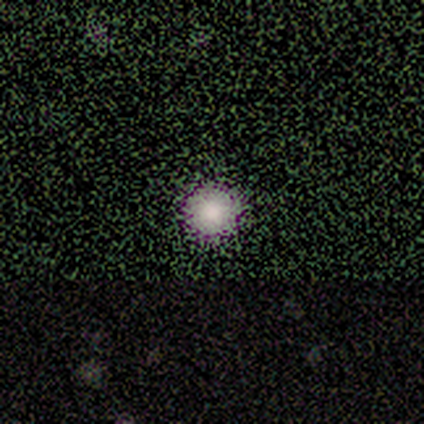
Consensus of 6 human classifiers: smooth_or_featured: smooth (p=0.67) [alt: star or artifact p=0.33]
how_rounded: round (p=1.00)
merging: none (p=1.00)